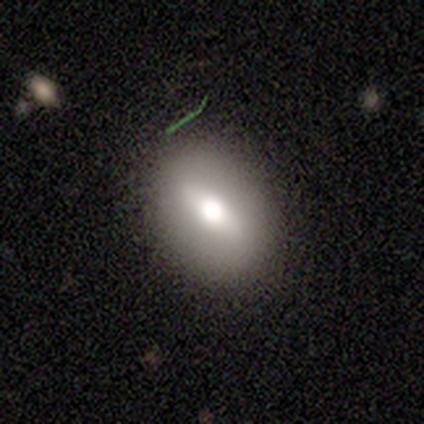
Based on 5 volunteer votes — smooth_or_featured: smooth (p=0.60) [alt: featured or disk p=0.20]
how_rounded: in between (p=1.00)
merging: none (p=1.00)